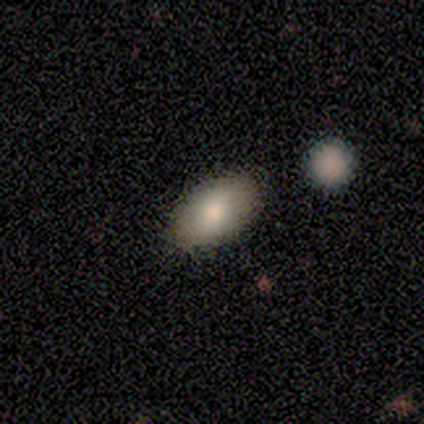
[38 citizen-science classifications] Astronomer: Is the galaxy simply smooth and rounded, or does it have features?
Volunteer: smooth — 82%.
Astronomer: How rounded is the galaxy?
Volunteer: in between — 94%.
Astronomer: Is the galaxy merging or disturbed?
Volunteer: none — 68%.